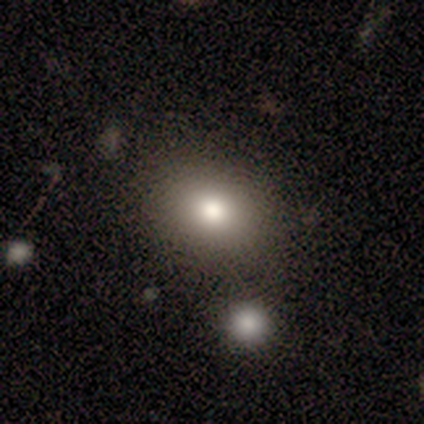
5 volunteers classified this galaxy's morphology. smooth_or_featured: smooth (p=1.00)
how_rounded: in between (p=0.80) [alt: round p=0.20]
merging: none (p=0.60) [alt: minor disturbance p=0.40]